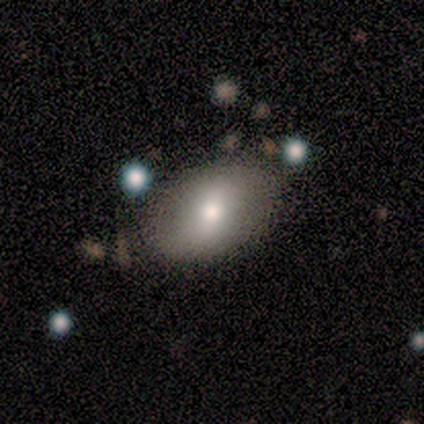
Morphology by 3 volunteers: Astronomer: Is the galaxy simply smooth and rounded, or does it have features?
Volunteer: smooth — 67%.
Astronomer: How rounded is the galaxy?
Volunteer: in between — 100%.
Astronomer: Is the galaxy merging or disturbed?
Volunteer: none — 67%.